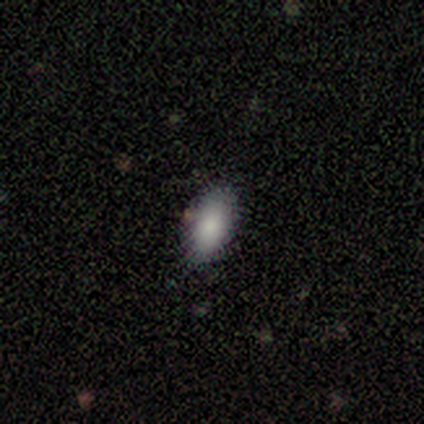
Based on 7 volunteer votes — This appears to be a smooth galaxy with no disk features (100%) that is in between round and cigar-shaped (86%). Merging: none (71%).